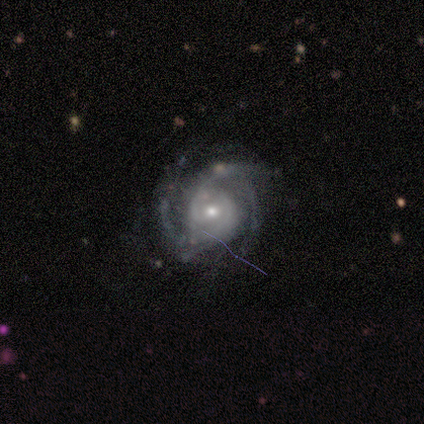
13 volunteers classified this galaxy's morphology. Volunteers were most divided on "spiral winding" (2-way tie): tight: 36%, loose: 36%, medium: 27%. More confident: edge-on disk — no (100%); spiral arms — yes (100%); merging — none (100%); smooth or featured — featured or disk (85%); bar — no (73%); bulge size — small (64%); spiral arm count — 3 (55%).